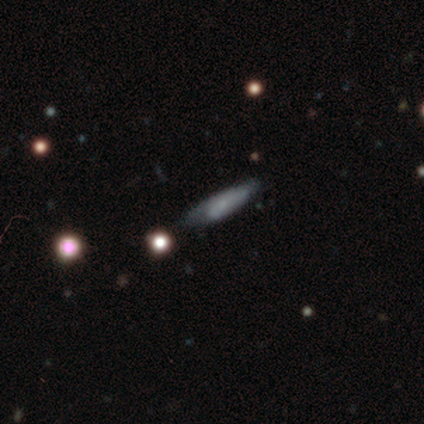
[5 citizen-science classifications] This is likely a smooth galaxy (60%). How rounded: likely cigar-shaped (67%). Merging: marginally none (40%, tied with minor disturbance).